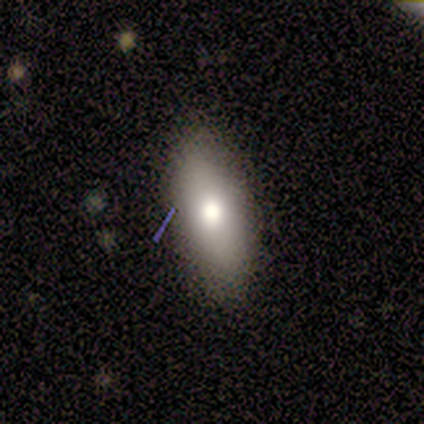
smooth_or_featured: smooth (p=0.71) [alt: featured or disk p=0.21]
how_rounded: in between (p=0.85) [alt: cigar-shaped p=0.11]
merging: none (p=0.86) [alt: minor disturbance p=0.14]